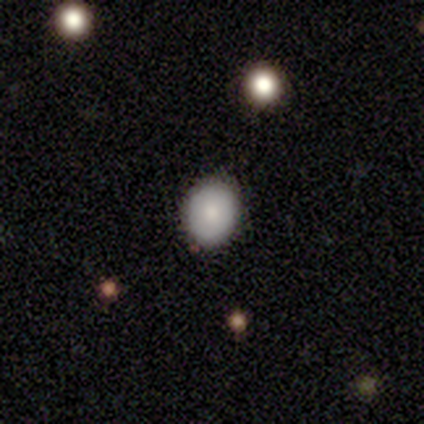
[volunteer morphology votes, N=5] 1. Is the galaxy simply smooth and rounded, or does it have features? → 100% smooth, 0% featured or disk, 0% star or artifact.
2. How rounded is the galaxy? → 60% round, 40% in between, 0% cigar-shaped.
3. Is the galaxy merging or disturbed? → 100% none, 0% minor disturbance, 0% major disturbance, 0% merger.